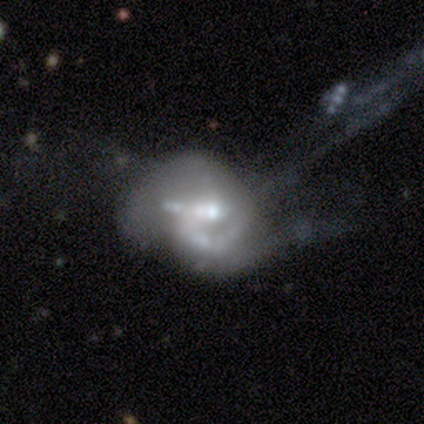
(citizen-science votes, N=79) Overall: featured or disk (73%). Edge-on disk: no (97%). Bar: no (88%). Spiral arms: yes (54%; no 46%). Spiral arm count: 2 (37%; 1 30%). Spiral winding: medium (53%; loose 27%). Bulge size: moderate (43%; small 41%). Merging: major disturbance (45%; merger 29%).